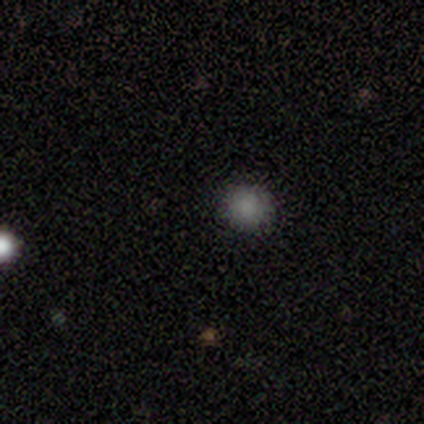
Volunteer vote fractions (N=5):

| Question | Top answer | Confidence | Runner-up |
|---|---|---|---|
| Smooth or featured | smooth | 40% | tied: star or artifact (40%) |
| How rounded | round | 100% | — |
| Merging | none | 100% | — |